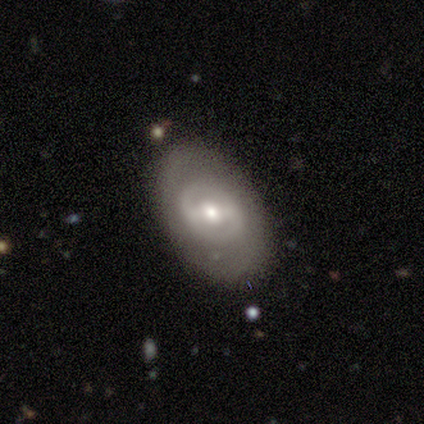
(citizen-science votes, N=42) smooth-or-featured: featured or disk: 76% | smooth: 24% | star or artifact: 0%
  disk-edge-on: no: 97% | yes: 3%
    bar: strong: 48% | weak: 35% | no: 16%
    has-spiral-arms: yes: 55% | no: 45%
      spiral-winding: tight: 53% | medium: 35% | loose: 12%
      spiral-arm-count: 2: 76% | can't tell: 24% | 1: 0% | 3: 0% | 4: 0% | more than 4: 0%
    bulge-size: moderate: 61% | small: 26% | large: 13% | dominant: 0% | none: 0%
  merging: none: 81% | minor disturbance: 17% | major disturbance: 2% | merger: 0%